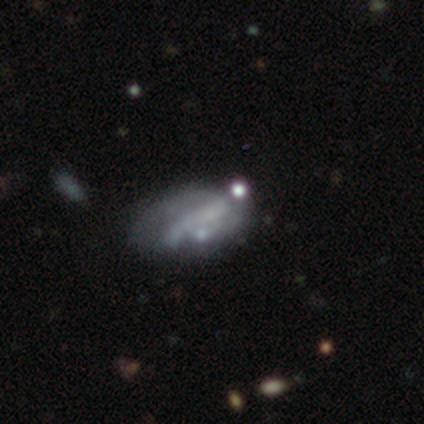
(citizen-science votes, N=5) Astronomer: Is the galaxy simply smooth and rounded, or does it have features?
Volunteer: smooth — 60%.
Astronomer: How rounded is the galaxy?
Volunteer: in between — 67%.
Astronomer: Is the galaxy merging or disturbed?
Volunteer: none — 75%.